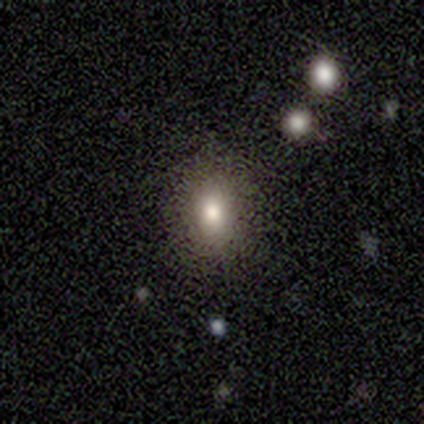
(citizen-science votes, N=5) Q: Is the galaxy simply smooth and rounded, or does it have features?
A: smooth — 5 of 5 (100%).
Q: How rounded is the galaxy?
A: in between — 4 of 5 (80%).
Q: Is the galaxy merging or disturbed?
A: none — 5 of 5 (100%).